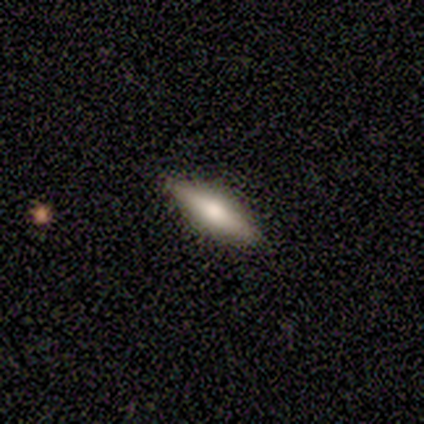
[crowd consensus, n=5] Smooth or featured? 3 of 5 (60%) said smooth. How rounded? 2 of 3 (67%) said in between. Merging? 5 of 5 (100%) said none.